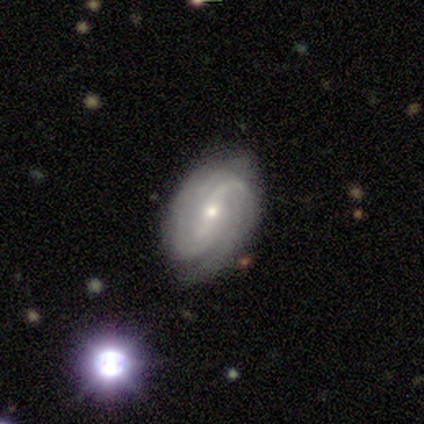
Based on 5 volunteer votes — Q: Smooth or featured?
A: featured or disk (80%); runner-up: star or artifact (20%)
Q: Edge-on disk?
A: no (100%)
Q: Bar?
A: no (50%); runner-up: strong (25%)
Q: Spiral arms?
A: yes (100%)
Q: Spiral winding?
A: tight (75%); runner-up: medium (25%)
Q: Spiral arm count?
A: 2 (50%); tied with: can't tell (50%)
Q: Bulge size?
A: small (100%)
Q: Merging?
A: none (75%); runner-up: minor disturbance (25%)